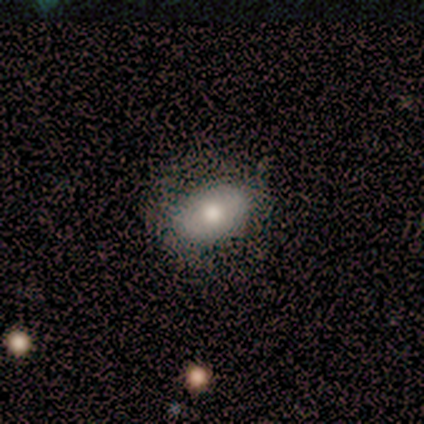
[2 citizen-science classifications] A smooth galaxy with no disk features (50%, tied with star or artifact) that is in between round and cigar-shaped (100%). Merging: none (100%).